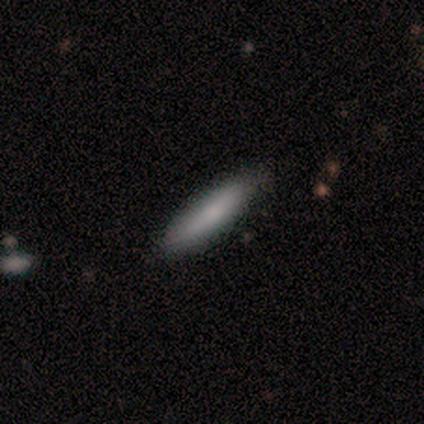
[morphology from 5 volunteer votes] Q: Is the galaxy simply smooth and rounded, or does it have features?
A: smooth — 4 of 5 (80%).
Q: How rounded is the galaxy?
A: cigar-shaped — 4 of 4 (100%).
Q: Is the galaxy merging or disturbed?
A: none — 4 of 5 (80%).